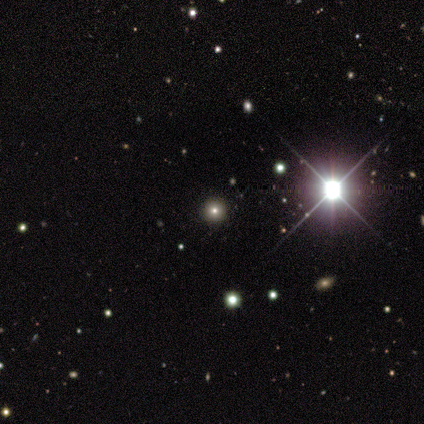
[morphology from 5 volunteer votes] This appears to be a smooth galaxy with no disk features (60%) that is round (100%). Merging: none (100%).